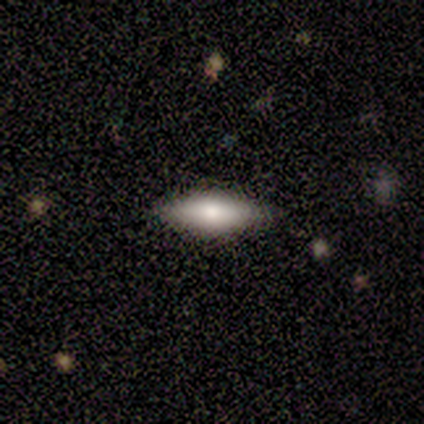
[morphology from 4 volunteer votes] A smooth galaxy with no disk features (50%, tied with featured or disk) that is cigar-shaped (100%).

Vote fractions:
- Smooth or featured? smooth: 50% (tied) / featured or disk: 50% (tied) / star or artifact: 0%
- How rounded? cigar-shaped: 100% / round: 0% / in between: 0%
- Merging? none: 75% / minor disturbance: 25% / major disturbance: 0% / merger: 0%